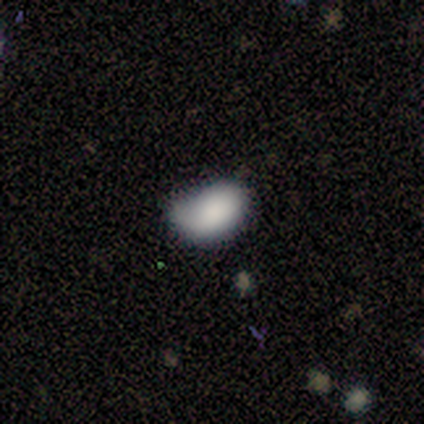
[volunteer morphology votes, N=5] smooth 100%, featured or disk 0%, star or artifact 0%. Down the decision tree: how rounded — in between (100%); merging — minor disturbance (60%).